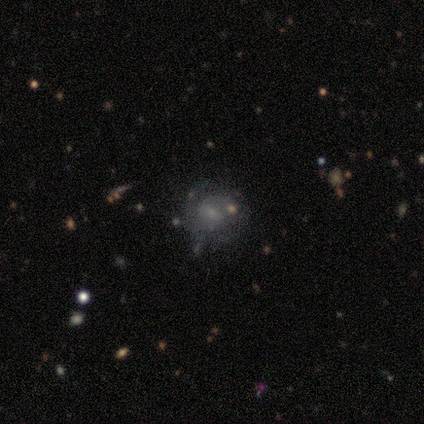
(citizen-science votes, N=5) smooth_or_featured: featured or disk (p=0.60) [alt: smooth p=0.20]
disk_edge_on: no (p=1.00)
bar: no (p=0.67) [alt: weak p=0.33]
has_spiral_arms: yes (p=1.00)
spiral_winding: tight (p=0.67) [alt: medium p=0.33]
spiral_arm_count: 2 (p=0.67) [alt: can't tell p=0.33]
bulge_size: small (p=0.67) [alt: moderate p=0.33]
merging: none (p=0.75) [alt: major disturbance p=0.25]